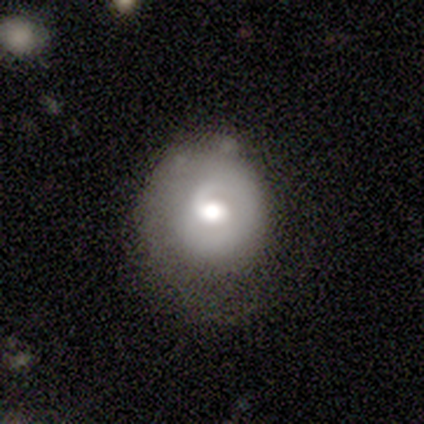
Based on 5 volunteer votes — smooth_or_featured: smooth (p=0.40) [tied with: featured or disk p=0.40]
how_rounded: round (p=1.00)
merging: none (p=0.75) [alt: minor disturbance p=0.25]